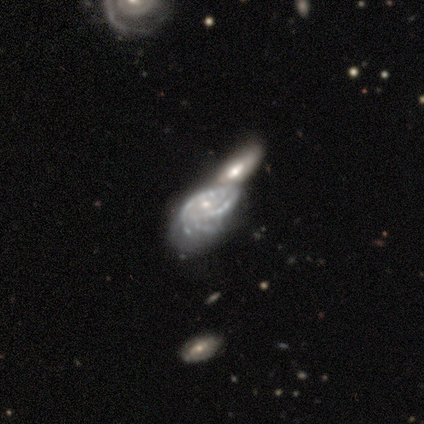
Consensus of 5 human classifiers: featured or disk 100%, smooth 0%, star or artifact 0%. Down the decision tree: edge-on disk — no (100%); bar — no (100%); spiral arms — yes (80%); spiral arm count — 2 (50%); spiral winding — tight (75%); bulge size — small (100%); merging — merger (60%).